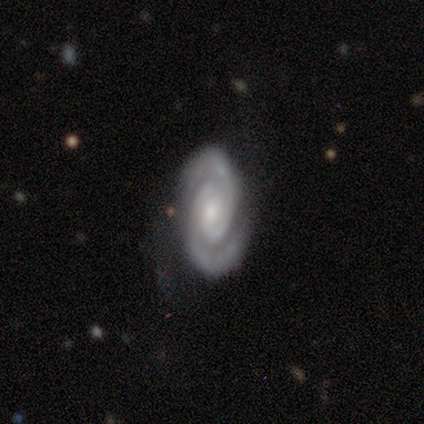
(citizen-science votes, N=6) This appears to be a featured or disk galaxy (100%) with no bar (60%), 2 (100%) tight (60%) spiral arms (100%) and a small central bulge (80%). Merging: none (83%).